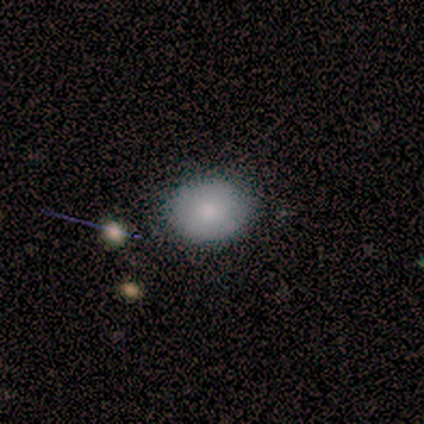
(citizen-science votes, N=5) smooth 80%, featured or disk 20%, star or artifact 0%. Down the decision tree: how rounded — round (75%); merging — none (100%).